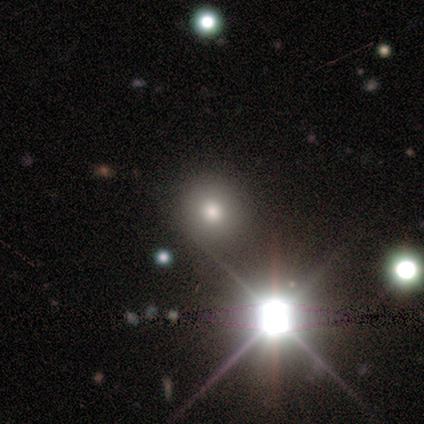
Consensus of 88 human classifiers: Smooth or featured: star or artifact — 56% (smooth — 39%)